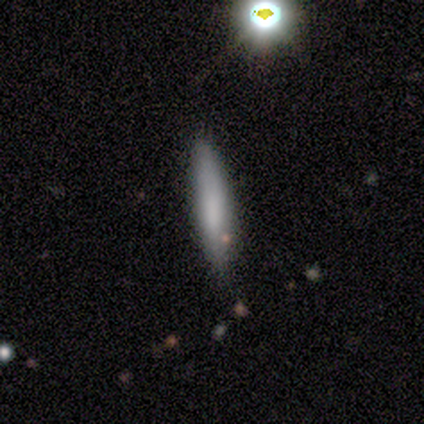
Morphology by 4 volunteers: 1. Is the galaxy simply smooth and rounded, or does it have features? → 100% smooth, 0% featured or disk, 0% star or artifact.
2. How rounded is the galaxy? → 75% cigar-shaped, 25% in between, 0% round.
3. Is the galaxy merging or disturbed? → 100% none, 0% minor disturbance, 0% major disturbance, 0% merger.